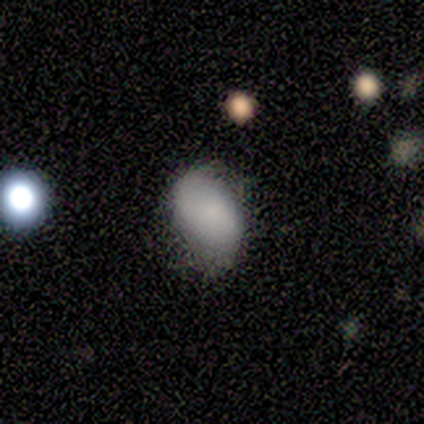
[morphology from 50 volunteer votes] A smooth galaxy with no disk features (72%) that is in between round and cigar-shaped (94%).

Vote fractions:
- Smooth or featured? smooth: 72% / featured or disk: 22% / star or artifact: 6%
- How rounded? in between: 94% / round: 6% / cigar-shaped: 0%
- Merging? none: 53% / minor disturbance: 34% / major disturbance: 9% / merger: 4%